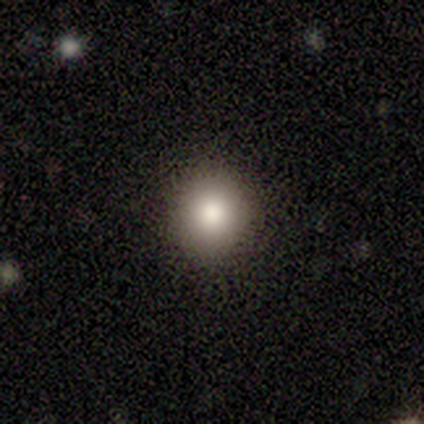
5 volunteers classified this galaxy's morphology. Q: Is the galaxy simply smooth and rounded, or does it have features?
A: smooth — 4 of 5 (80%).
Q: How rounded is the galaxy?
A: round — 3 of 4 (75%).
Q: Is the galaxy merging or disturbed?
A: none — 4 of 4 (100%).